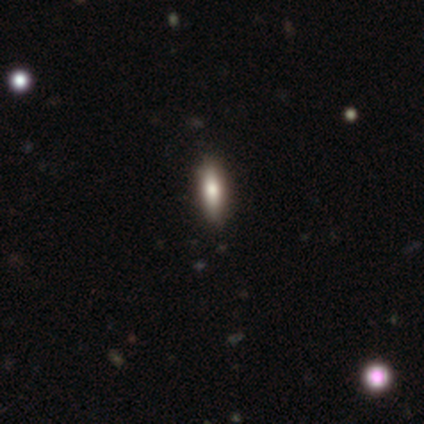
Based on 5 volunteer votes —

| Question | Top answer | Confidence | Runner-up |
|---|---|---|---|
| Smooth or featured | smooth | 100% | — |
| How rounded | cigar-shaped | 100% | — |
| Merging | none | 80% | minor disturbance (20%) |